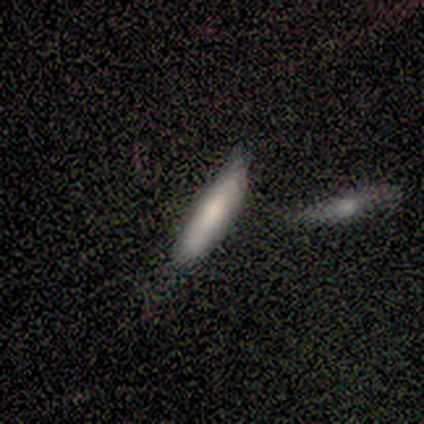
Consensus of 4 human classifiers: Smooth or featured: smooth — 50% (featured or disk — 25%)
How rounded: in between — 50% (tied with cigar-shaped — 50%)
Merging: none — 67% (merger — 33%)